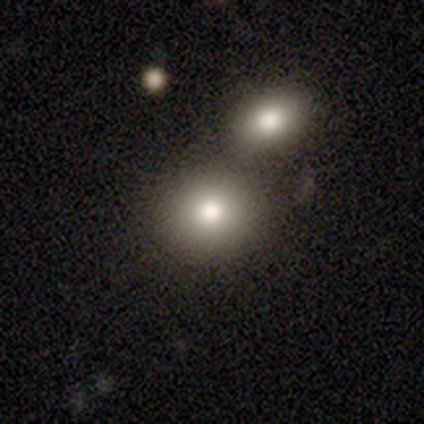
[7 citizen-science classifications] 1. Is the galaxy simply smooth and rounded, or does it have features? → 86% smooth, 14% featured or disk, 0% star or artifact.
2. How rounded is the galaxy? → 83% round, 17% in between, 0% cigar-shaped.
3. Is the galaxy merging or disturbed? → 71% none, 29% merger, 0% minor disturbance, 0% major disturbance.